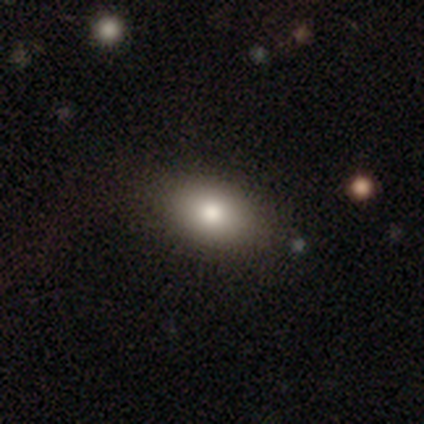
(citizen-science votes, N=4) Consensus on every question: smooth or featured — smooth (100%); how rounded — in between (100%); merging — none (100%).